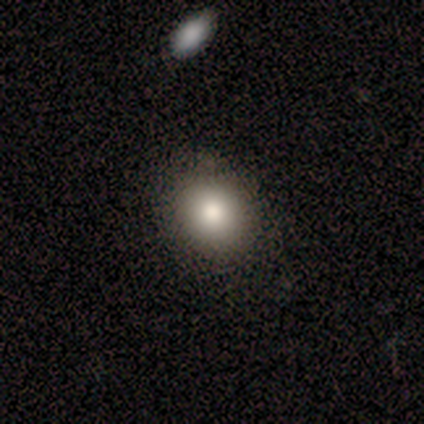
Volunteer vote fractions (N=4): Smooth or featured? smooth (75%)
How rounded? round (67%)
Merging? major disturbance (67%)